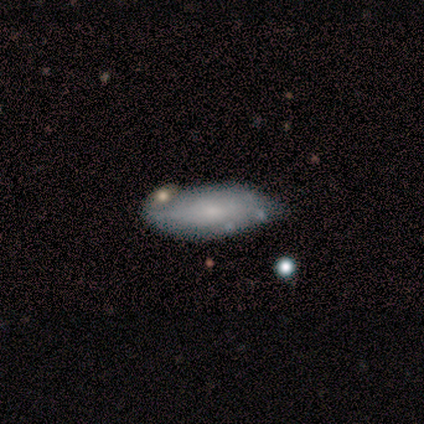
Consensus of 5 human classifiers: Smooth or featured: smooth — 80% (featured or disk — 20%)
How rounded: in between — 100%
Merging: merger — 60% (minor disturbance — 40%)